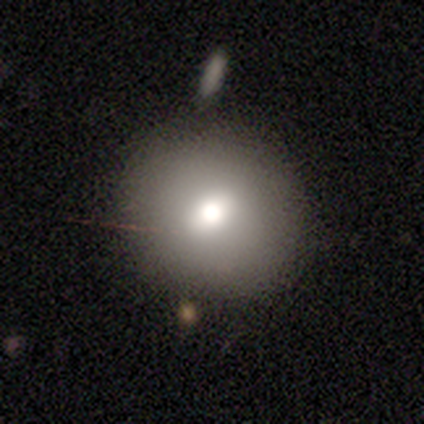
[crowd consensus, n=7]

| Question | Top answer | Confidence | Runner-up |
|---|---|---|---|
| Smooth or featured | smooth | 57% | featured or disk (43%) |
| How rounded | round | 100% | — |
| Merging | none | 71% | minor disturbance (14%) |